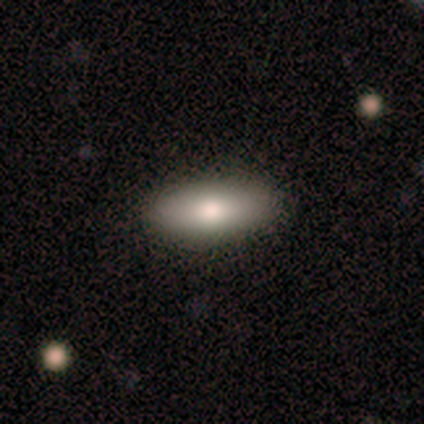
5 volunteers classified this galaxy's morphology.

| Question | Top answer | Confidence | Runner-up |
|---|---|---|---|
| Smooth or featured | smooth | 100% | — |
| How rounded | in between | 100% | — |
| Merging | none | 80% | major disturbance (20%) |